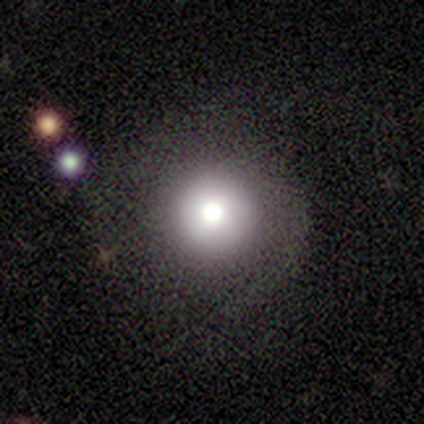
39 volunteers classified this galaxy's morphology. A smooth galaxy with no disk features (56%) that is round (100%). Merging: none (71%).